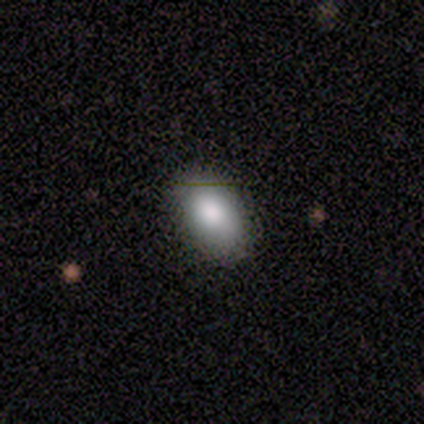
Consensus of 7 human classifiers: Overall: smooth (86%). How rounded: in between (100%). Merging: none (100%).